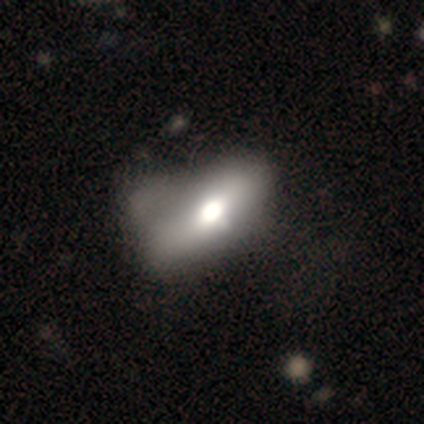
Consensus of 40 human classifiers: smooth 62%, featured or disk 35%, star or artifact 2%. Down the decision tree: how rounded — in between (84%); merging — major disturbance (36%).